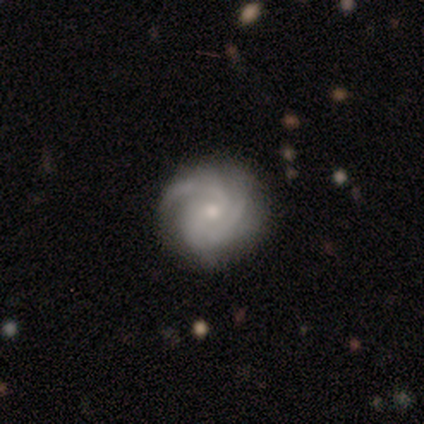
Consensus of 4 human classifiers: A featured or disk galaxy (100%) with no bar (75%), 3 (75%) tight (75%) spiral arms (100%) and a small central bulge (75%). Merging: none (75%).